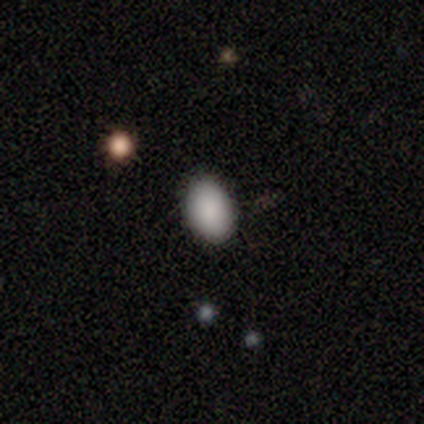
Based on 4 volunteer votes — A smooth galaxy with no disk features (100%) that is in between round and cigar-shaped (75%). Merging: none (75%).